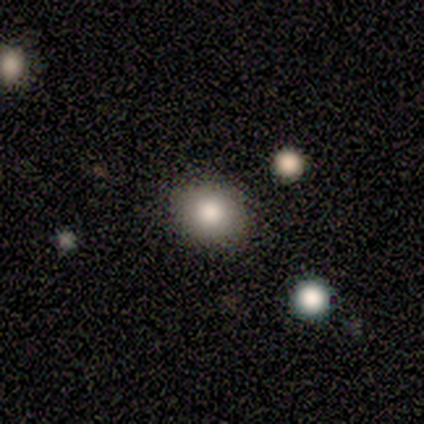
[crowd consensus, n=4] smooth_or_featured: smooth (p=1.00)
how_rounded: round (p=0.50) [tied with: in between p=0.50]
merging: none (p=0.75) [alt: minor disturbance p=0.25]